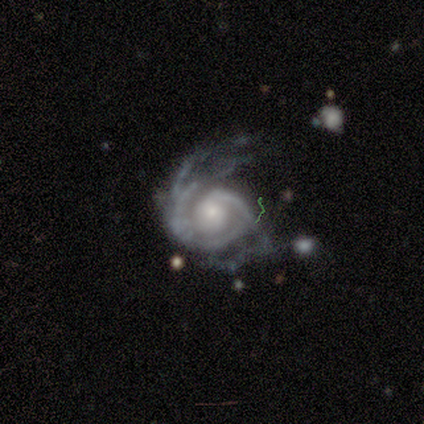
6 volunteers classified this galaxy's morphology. This is clearly a featured or disk galaxy (100%). It is clearly not viewed edge-on (100%). Bar: clearly no (83%). Spiral arm pattern: clearly yes (100%). Spiral arm count: marginally 1 (33%, tied with 2). Spiral winding: likely tight (67%). Central bulge: possibly small (50%). Merging: marginally none (33%, tied with major disturbance).